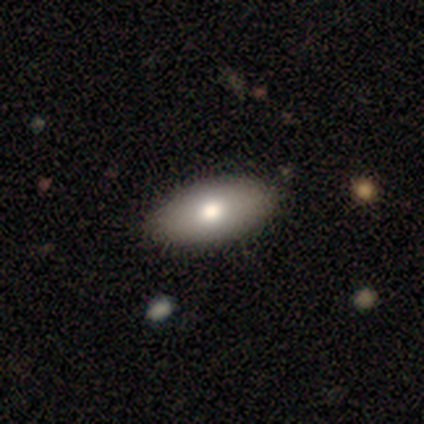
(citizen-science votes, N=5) A featured or disk galaxy (60%) with no bar (100%), no spiral arms (100%) and a moderate central bulge (100%). Merging: none (80%).